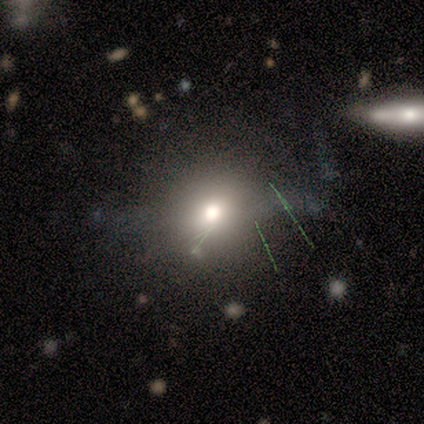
Overall: smooth (50%; featured or disk 33%). How rounded: in between (67%; round 33%). Merging: none (100%).